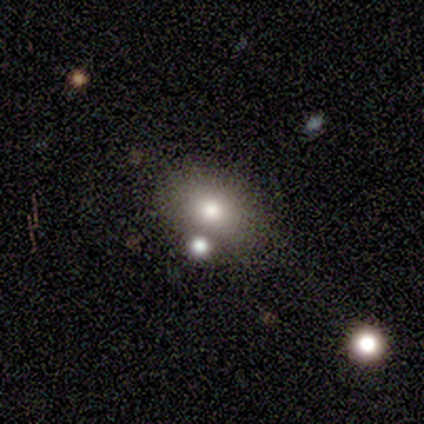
smooth_or_featured: smooth (p=1.00)
how_rounded: in between (p=0.80) [alt: round p=0.20]
merging: none (p=0.80) [alt: minor disturbance p=0.20]